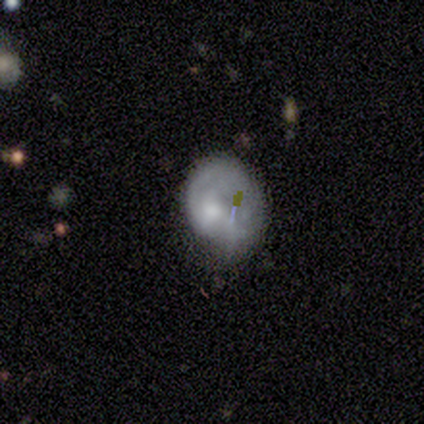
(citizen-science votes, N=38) Overall: smooth (45%; featured or disk 42%). How rounded: in between (53%; round 47%). Merging: none (36%, tied with minor disturbance).